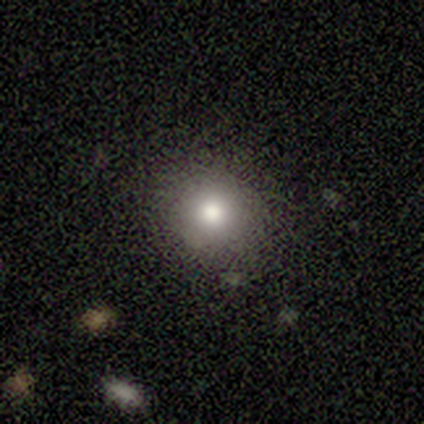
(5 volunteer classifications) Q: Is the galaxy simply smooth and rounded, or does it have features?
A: smooth — 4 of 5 (80%).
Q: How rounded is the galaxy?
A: round — 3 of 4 (75%).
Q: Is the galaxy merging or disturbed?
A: none — 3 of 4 (75%).